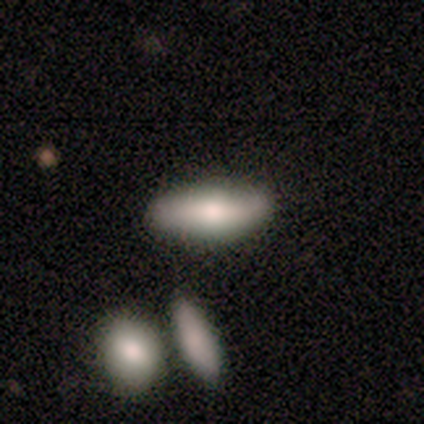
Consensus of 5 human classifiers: Smooth or featured: smooth — 80% (featured or disk — 20%)
How rounded: in between — 100%
Merging: none — 80% (minor disturbance — 20%)